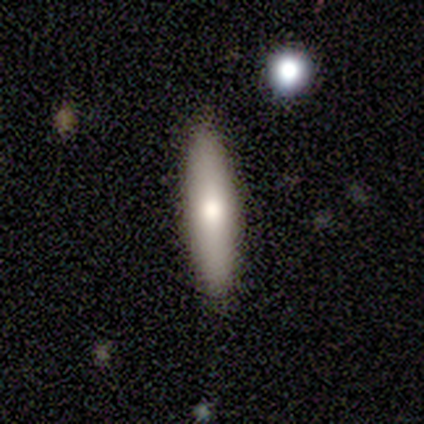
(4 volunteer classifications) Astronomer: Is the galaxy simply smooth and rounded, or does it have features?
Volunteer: smooth — 75%.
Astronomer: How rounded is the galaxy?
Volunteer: cigar-shaped — 100%.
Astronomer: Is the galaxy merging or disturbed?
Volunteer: none — 100%.